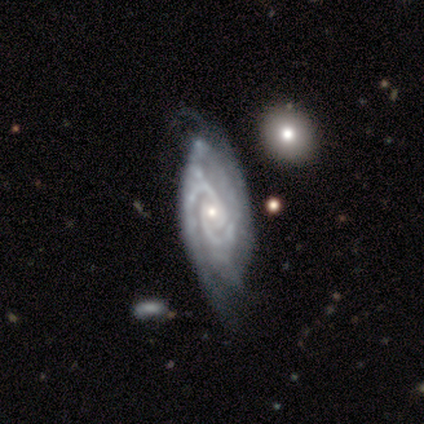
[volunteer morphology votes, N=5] This appears to be a featured or disk galaxy (100%) with no bar (75%), 2 (50%, tied with 3) tight (75%) spiral arms (100%) and a small central bulge (75%). Merging: none (40%, tied with merger).